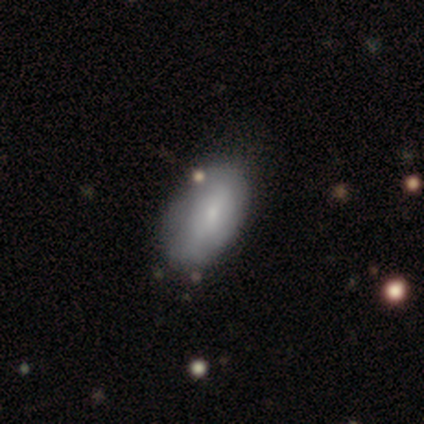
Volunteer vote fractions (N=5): Volunteers were most divided on "merging": none: 60%, minor disturbance: 40%, major disturbance: 0%, merger: 0%. More confident: smooth or featured — smooth (100%); how rounded — in between (100%).